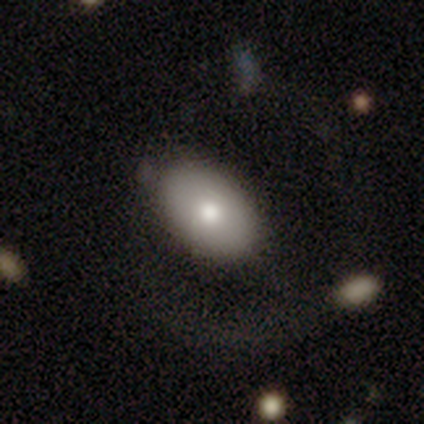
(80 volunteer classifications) Smooth or featured? 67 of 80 (84%) said smooth. How rounded? 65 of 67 (97%) said in between. Merging? 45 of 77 (58%) said none.